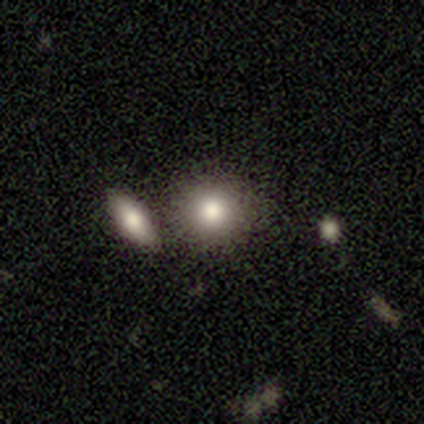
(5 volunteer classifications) Overall: smooth (60%; featured or disk 20%). How rounded: round (67%; in between 33%). Merging: merger (75%).